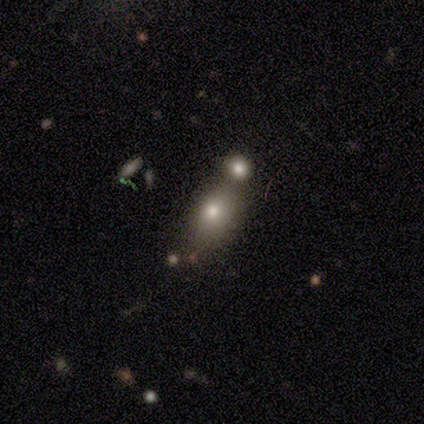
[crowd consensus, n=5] Smooth or featured: smooth — 80% (featured or disk — 20%)
How rounded: in between — 75% (round — 25%)
Merging: none — 60% (merger — 40%)